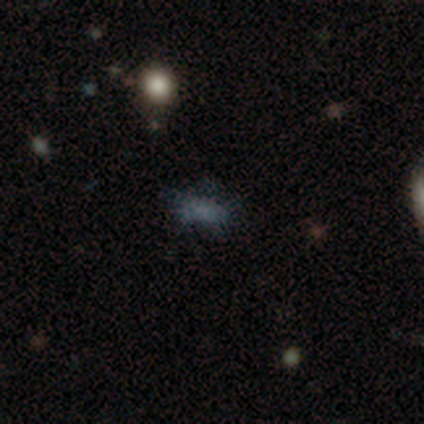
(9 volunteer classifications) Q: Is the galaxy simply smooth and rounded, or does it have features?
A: smooth — 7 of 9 (78%).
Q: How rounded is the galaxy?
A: in between — 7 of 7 (100%).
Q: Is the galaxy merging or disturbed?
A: none — 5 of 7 (71%).